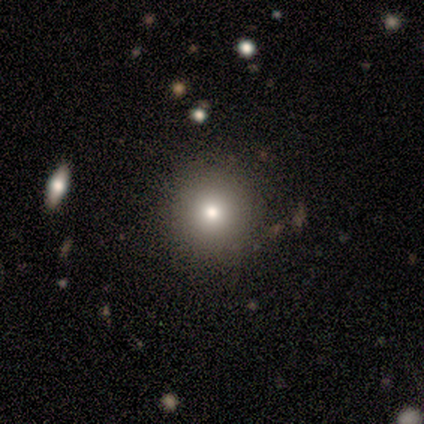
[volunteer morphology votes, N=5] Smooth or featured? smooth (80%)
How rounded? round (100%)
Merging? none (100%)